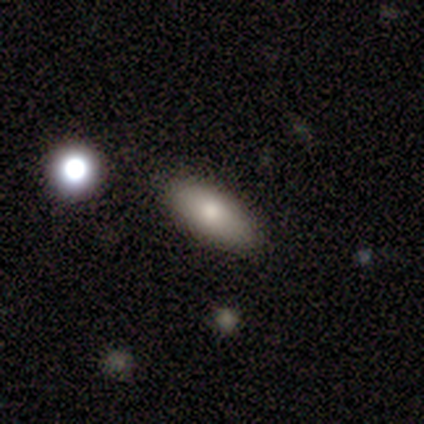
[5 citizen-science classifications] A smooth galaxy with no disk features (80%) that is in between round and cigar-shaped (100%). Merging: none (100%).